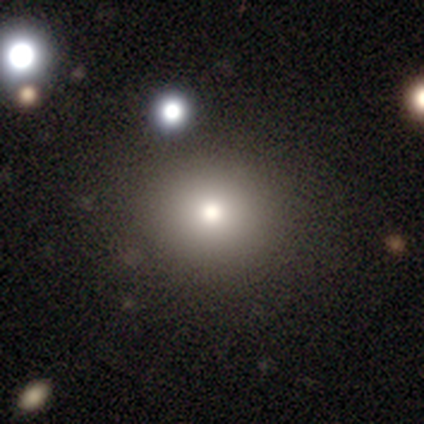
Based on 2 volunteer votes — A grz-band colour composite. It shows a smooth galaxy with no disk features (50%, tied with featured or disk) that is in between round and cigar-shaped (100%). Merging: none (100%).